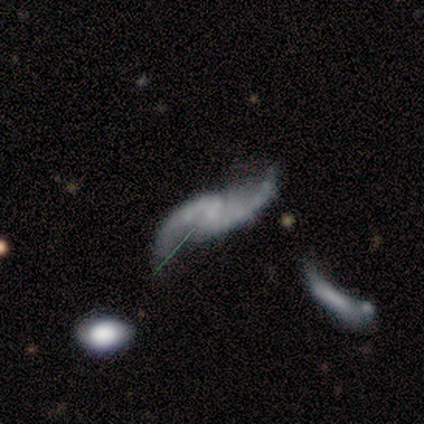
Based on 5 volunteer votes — Smooth or featured? 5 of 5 (100%) said featured or disk. Edge-on disk? 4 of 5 (80%) said no. Bar? 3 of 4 (75%) said no. Spiral arms? 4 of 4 (100%) said yes. Spiral winding? 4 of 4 (100%) said loose. Spiral arm count? 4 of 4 (100%) said 2. Bulge size? 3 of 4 (75%) said none. Merging? 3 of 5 (60%) said none.